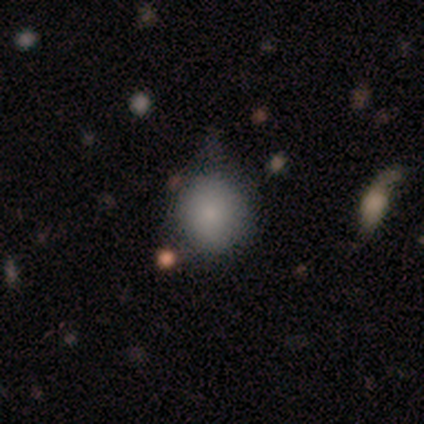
Q: Smooth or featured?
A: smooth (80%); runner-up: star or artifact (20%)
Q: How rounded?
A: round (100%)
Q: Merging?
A: none (75%); runner-up: minor disturbance (25%)